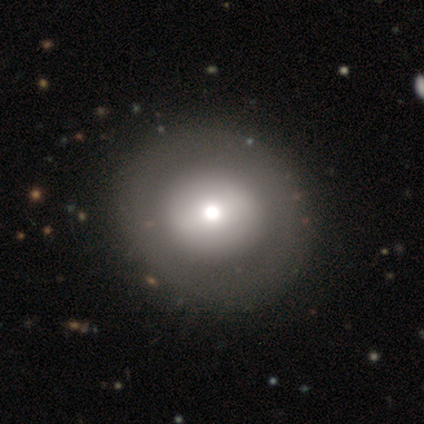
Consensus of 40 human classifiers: Overall: smooth (60%; featured or disk 35%). How rounded: round (92%). Merging: none (53%).